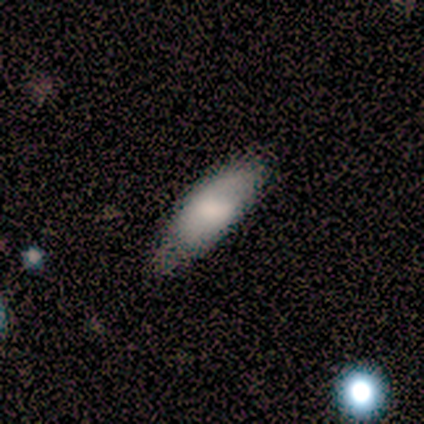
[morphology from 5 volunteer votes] Smooth or featured: smooth — 40% (tied with featured or disk — 40%)
How rounded: in between — 100%
Merging: none — 50% (tied with minor disturbance — 50%)